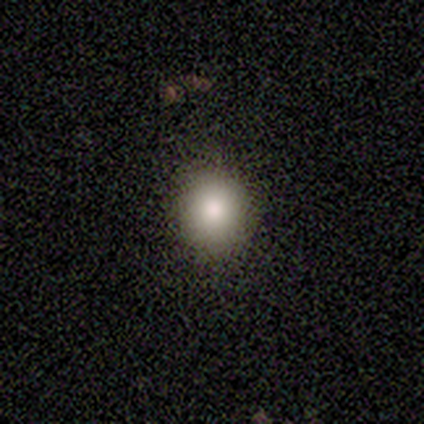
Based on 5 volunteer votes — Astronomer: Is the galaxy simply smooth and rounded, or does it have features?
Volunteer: smooth — 60% (runner-up: star or artifact, 40%).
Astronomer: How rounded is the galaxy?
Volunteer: round — 100%.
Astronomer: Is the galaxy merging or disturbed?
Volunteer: none — 100%.